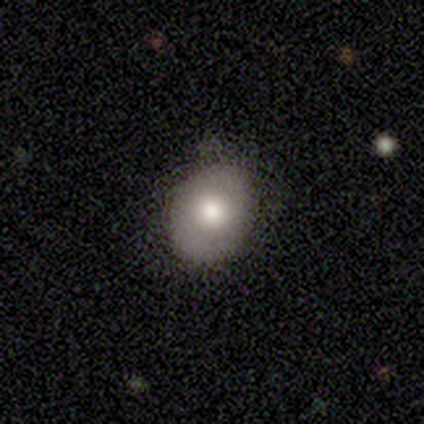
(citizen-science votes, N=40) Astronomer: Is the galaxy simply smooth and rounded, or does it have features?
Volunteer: smooth — 62%.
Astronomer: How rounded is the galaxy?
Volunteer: round — 48%, tied with in between at 48%.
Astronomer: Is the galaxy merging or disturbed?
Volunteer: none — 78%.